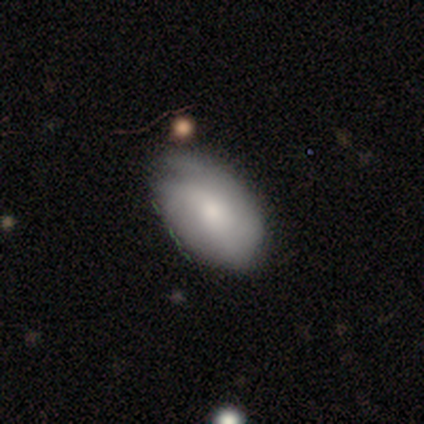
Volunteers were most divided on "smooth or featured": featured or disk: 57%, smooth: 43%, star or artifact: 0%. More confident: edge-on disk — no (100%); spiral arms — yes (75%); bulge size — moderate (75%); spiral winding — medium (67%); spiral arm count — 2 (67%); merging — none (57%); bar — weak (50%).